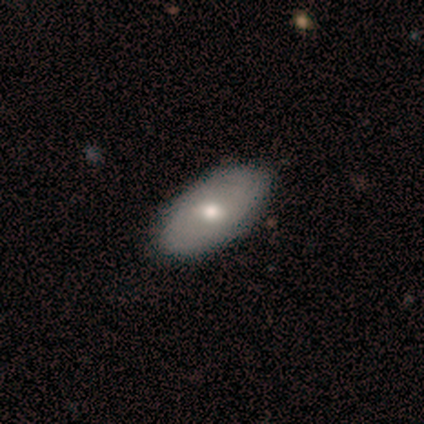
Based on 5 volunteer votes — A smooth galaxy with no disk features (60%) that is in between round and cigar-shaped (100%).

Vote fractions:
- Smooth or featured? smooth: 60% / featured or disk: 20% / star or artifact: 20%
- How rounded? in between: 100% / round: 0% / cigar-shaped: 0%
- Merging? none: 75% / minor disturbance: 25% / major disturbance: 0% / merger: 0%